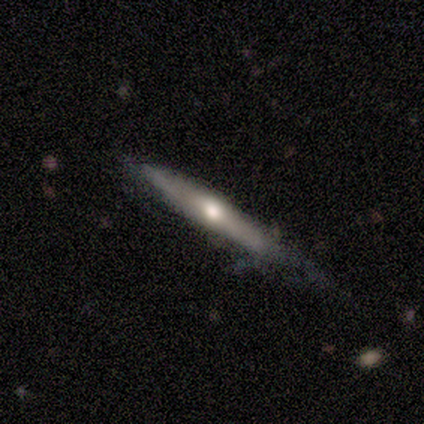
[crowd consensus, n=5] Q: Smooth or featured?
A: featured or disk (100%)
Q: Edge-on disk?
A: yes (100%)
Q: Edge-on bulge?
A: rounded (80%); runner-up: none (20%)
Q: Merging?
A: none (60%); runner-up: minor disturbance (20%)